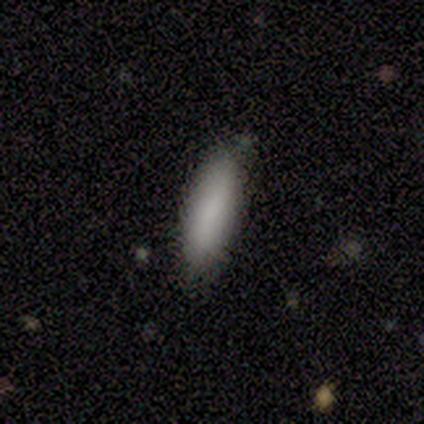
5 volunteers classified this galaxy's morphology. This appears to be a smooth galaxy with no disk features (100%) that is cigar-shaped (80%). Merging: none (60%).